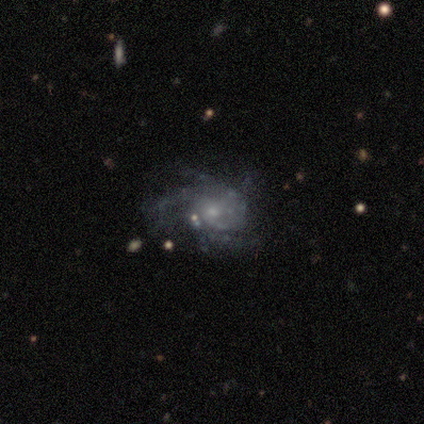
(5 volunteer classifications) A featured or disk galaxy (60%) with no bar (100%), 2 (50%, tied with 3) tight (100%) spiral arms (67%) and a small central bulge (67%).

Vote fractions:
- Smooth or featured? featured or disk: 60% / smooth: 20% / star or artifact: 20%
- Edge-on disk? no: 100% / yes: 0%
- Bar? no: 100% / strong: 0% / weak: 0%
- Spiral arms? yes: 67% / no: 33%
- Spiral winding? tight: 100% / medium: 0% / loose: 0%
- Spiral arm count? 2: 50% (tied) / 3: 50% (tied) / 1: 0% / 4: 0% / more than 4: 0% / can't tell: 0%
- Bulge size? small: 67% / moderate: 33% / dominant: 0% / large: 0% / none: 0%
- Merging? none: 75% / minor disturbance: 25% / major disturbance: 0% / merger: 0%